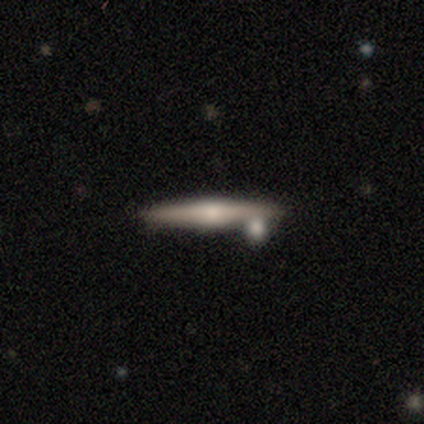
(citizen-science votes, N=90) A featured or disk galaxy (71%) viewed edge-on (92%) with a rounded central bulge (85%).

Vote fractions:
- Smooth or featured? featured or disk: 71% / smooth: 22% / star or artifact: 7%
- Edge-on disk? yes: 92% / no: 8%
- Edge-on bulge? rounded: 85% / boxy: 8% / none: 7%
- Merging? none: 76% / minor disturbance: 17% / merger: 6% / major disturbance: 1%